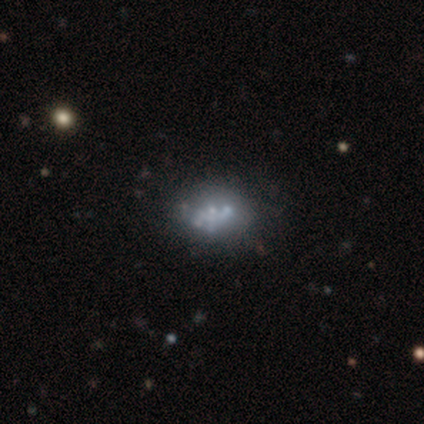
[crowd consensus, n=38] This is likely a featured or disk galaxy (76%). It is clearly not viewed edge-on (100%). Bar: clearly no (97%). Spiral arm pattern: clearly no (93%). Central bulge: possibly none (55%). Merging: possibly none (46%).